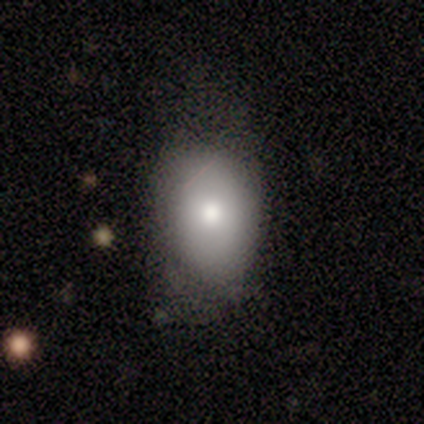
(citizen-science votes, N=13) smooth-or-featured: smooth: 62% | featured or disk: 31% | star or artifact: 8%
  how-rounded: round: 50% (tied) | in between: 50% (tied) | cigar-shaped: 0%
  merging: none: 50% | minor disturbance: 42% | merger: 8% | major disturbance: 0%